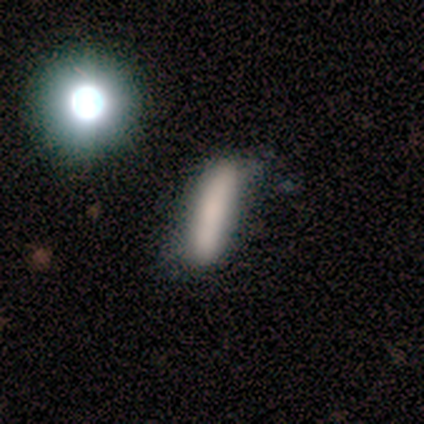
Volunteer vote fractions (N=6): Smooth or featured? 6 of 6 (100%) said smooth. How rounded? 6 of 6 (100%) said cigar-shaped. Merging? 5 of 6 (83%) said none.